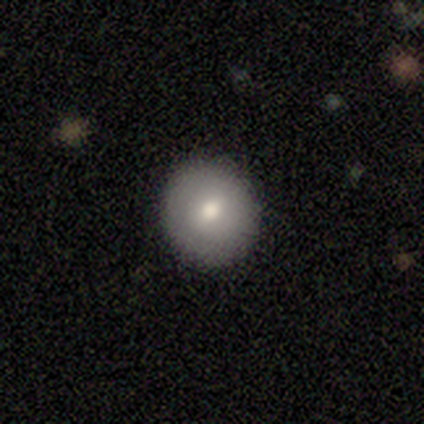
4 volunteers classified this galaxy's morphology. smooth-or-featured: smooth: 75% | featured or disk: 25% | star or artifact: 0%
  how-rounded: round: 100% | in between: 0% | cigar-shaped: 0%
  merging: none: 100% | minor disturbance: 0% | major disturbance: 0% | merger: 0%